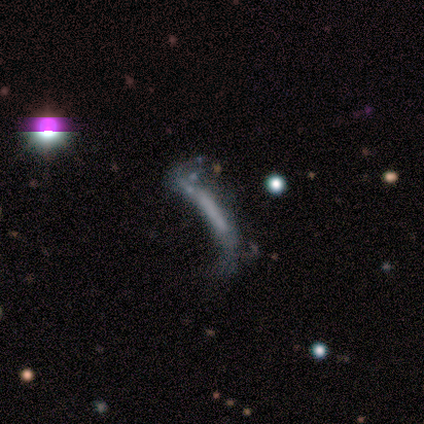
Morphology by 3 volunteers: smooth_or_featured: featured or disk (p=1.00)
disk_edge_on: no (p=1.00)
bar: no (p=1.00)
has_spiral_arms: no (p=1.00)
bulge_size: none (p=0.67) [alt: dominant p=0.33]
merging: major disturbance (p=0.67) [alt: none p=0.33]